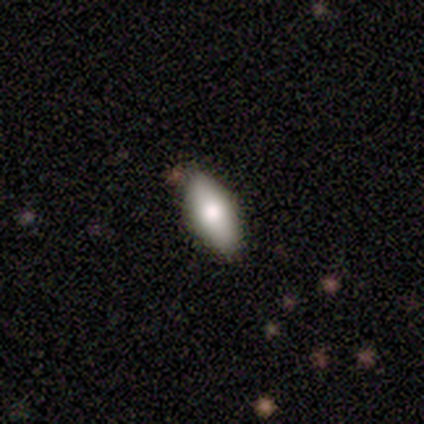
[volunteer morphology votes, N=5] This appears to be a smooth galaxy with no disk features (80%) that is in between round and cigar-shaped (75%). Merging: none (80%).